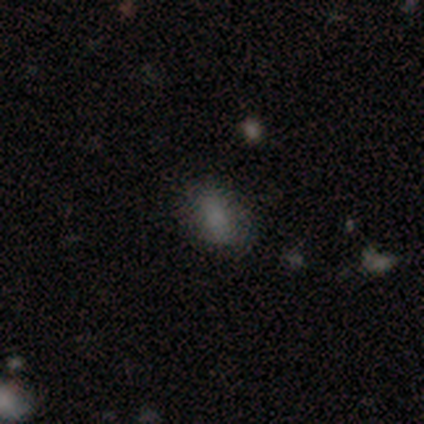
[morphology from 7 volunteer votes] Smooth or featured?
  - smooth: 43% *
  - featured or disk: 29%
  - star or artifact: 29%
How rounded?
  - in between: 100% *
  - round: 0%
  - cigar-shaped: 0%
Merging?
  - none: 80% *
  - minor disturbance: 20%
  - major disturbance: 0%
  - merger: 0%